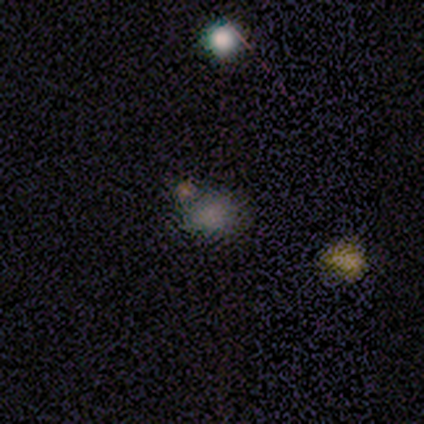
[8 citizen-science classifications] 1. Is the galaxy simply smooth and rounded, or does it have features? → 62% smooth, 38% star or artifact, 0% featured or disk.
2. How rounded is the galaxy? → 60% round, 40% in between, 0% cigar-shaped.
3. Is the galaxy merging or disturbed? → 80% none, 20% minor disturbance, 0% major disturbance, 0% merger.